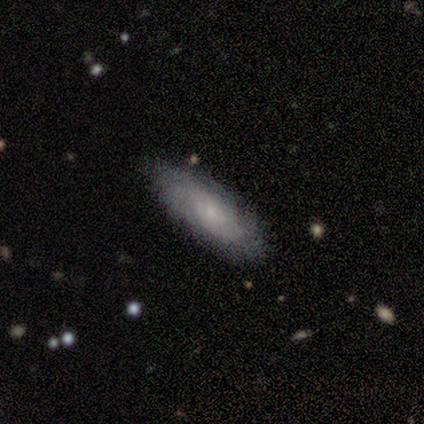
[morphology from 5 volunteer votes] smooth_or_featured: smooth (p=0.80) [alt: featured or disk p=0.20]
how_rounded: in between (p=1.00)
merging: none (p=1.00)